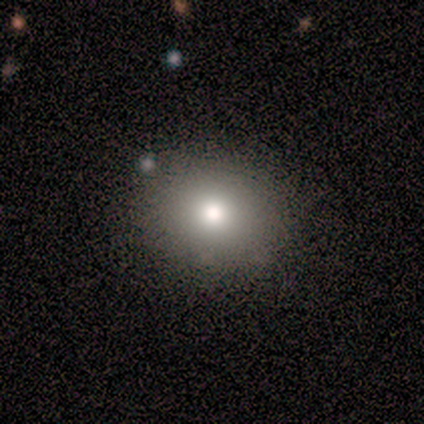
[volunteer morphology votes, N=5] A smooth galaxy with no disk features (100%) that is round (80%). Merging: none (100%).